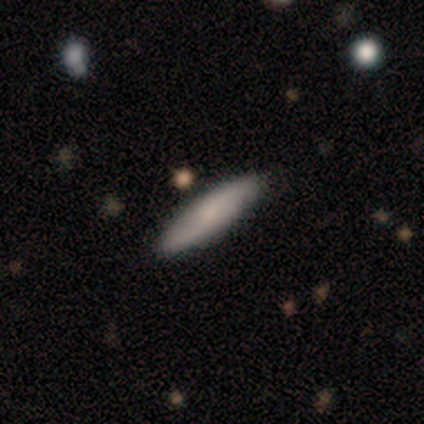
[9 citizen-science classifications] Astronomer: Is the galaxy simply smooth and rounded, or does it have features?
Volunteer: smooth — 78%.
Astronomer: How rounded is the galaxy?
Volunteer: cigar-shaped — 86%.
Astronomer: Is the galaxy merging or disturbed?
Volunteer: none — 100%.